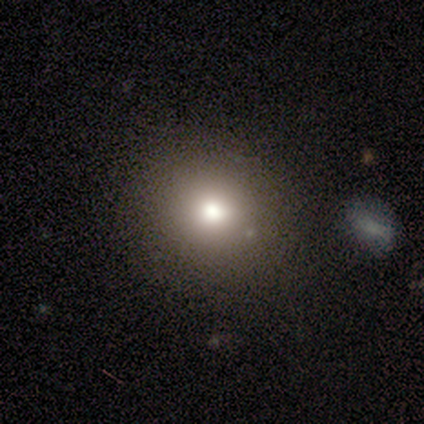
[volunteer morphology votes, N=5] Smooth or featured? smooth (60%)
How rounded? round (100%)
Merging? none (75%)